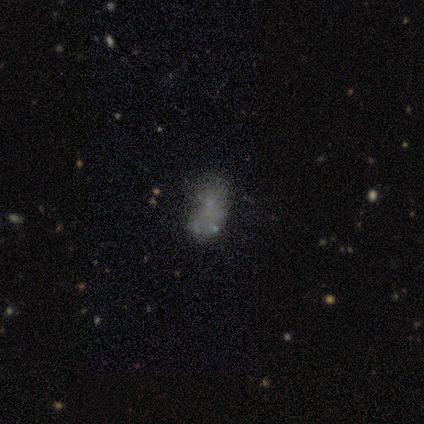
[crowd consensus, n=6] Smooth or featured: star or artifact — 67% (smooth — 17%)